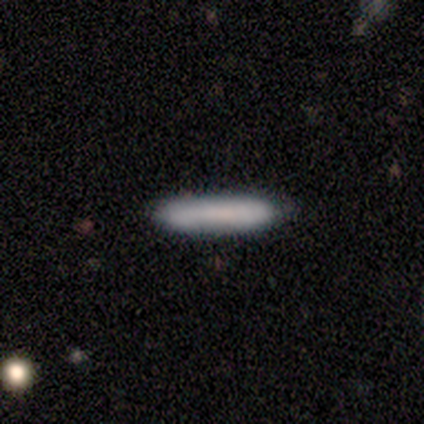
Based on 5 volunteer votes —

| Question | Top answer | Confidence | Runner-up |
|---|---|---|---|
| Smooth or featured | smooth | 80% | featured or disk (20%) |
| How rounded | cigar-shaped | 100% | — |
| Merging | none | 80% | minor disturbance (20%) |